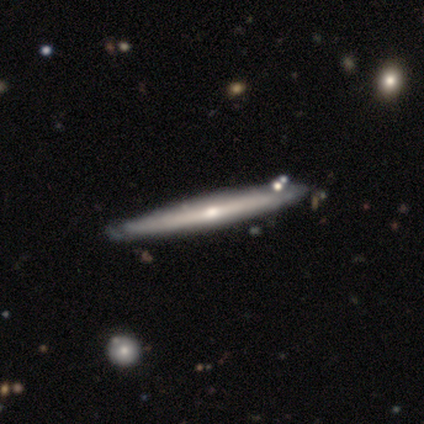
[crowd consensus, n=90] Smooth or featured? 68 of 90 (76%) said featured or disk. Edge-on disk? 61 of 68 (90%) said yes. Edge-on bulge? 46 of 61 (75%) said rounded. Merging? 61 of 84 (73%) said none.